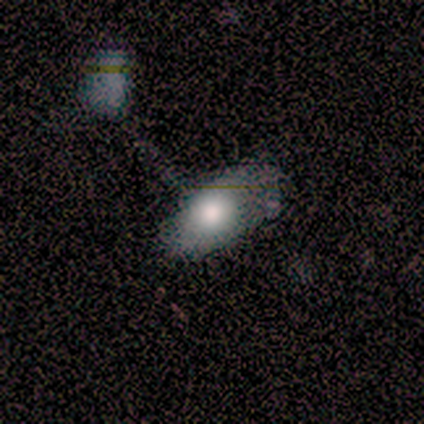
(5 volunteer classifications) This is clearly a smooth galaxy (80%). How rounded: clearly in between (100%). Merging: marginally merger (40%).